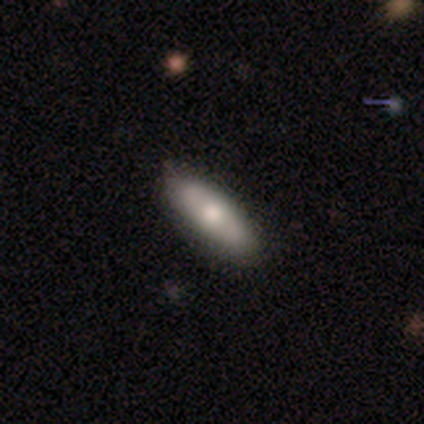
smooth-or-featured: smooth: 80% | featured or disk: 20% | star or artifact: 0%
  how-rounded: in between: 50% (tied) | cigar-shaped: 50% (tied) | round: 0%
  merging: none: 100% | minor disturbance: 0% | major disturbance: 0% | merger: 0%